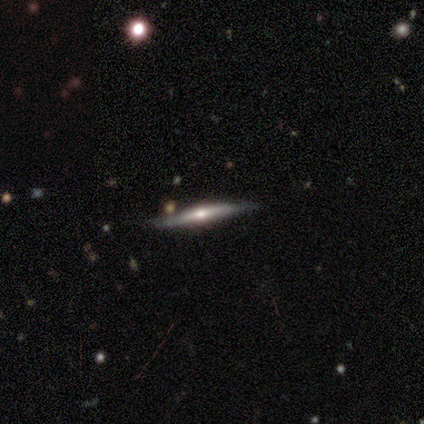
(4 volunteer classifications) This is clearly a featured or disk galaxy (100%). It is clearly viewed edge-on (100%). Edge-on bulge: likely rounded (75%). Merging: clearly none (100%).